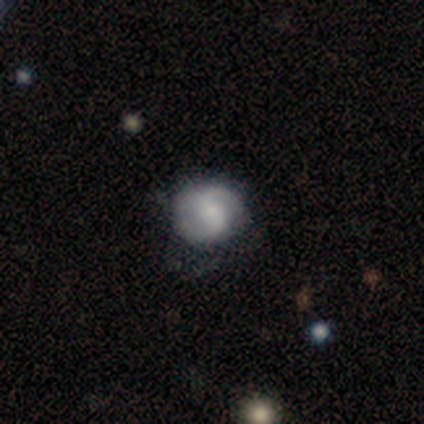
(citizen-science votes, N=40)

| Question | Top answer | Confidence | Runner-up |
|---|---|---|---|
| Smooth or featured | featured or disk | 62% | smooth (35%) |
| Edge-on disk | no | 100% | — |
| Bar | weak | 60% | strong (20%) |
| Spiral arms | yes | 96% | no (4%) |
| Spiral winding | medium | 50% | loose (33%) |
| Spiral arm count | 2 | 92% | 1 (4%) |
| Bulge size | small | 36% | moderate (32%) |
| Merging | none | 51% | minor disturbance (18%) |